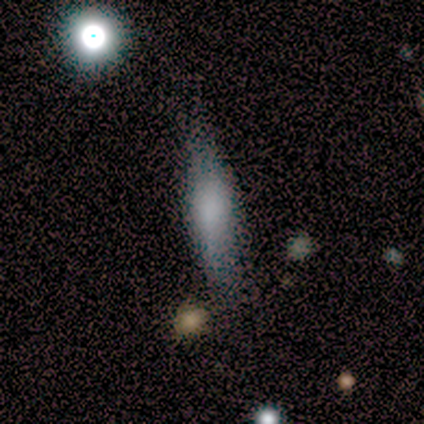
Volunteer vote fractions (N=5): smooth-or-featured: smooth: 80% | star or artifact: 20% | featured or disk: 0%
  how-rounded: cigar-shaped: 75% | in between: 25% | round: 0%
  merging: none: 50% | minor disturbance: 25% | major disturbance: 25% | merger: 0%